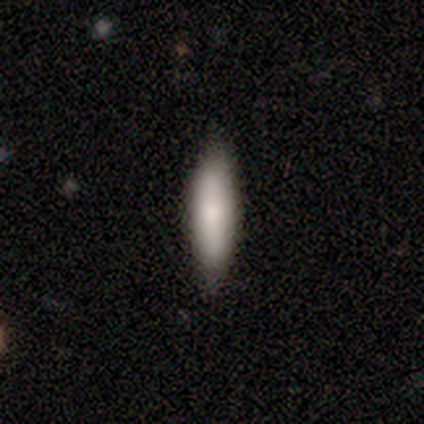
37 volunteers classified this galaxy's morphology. Smooth or featured: smooth — 78% (featured or disk — 16%)
How rounded: cigar-shaped — 66% (in between — 34%)
Merging: none — 86% (minor disturbance — 11%)